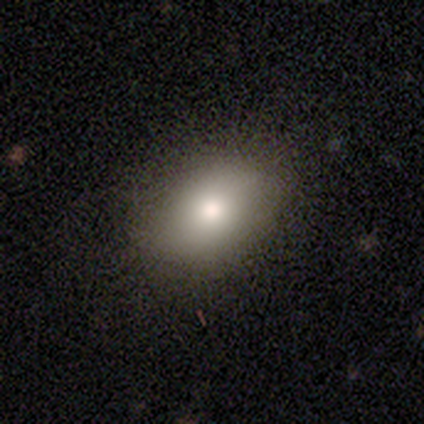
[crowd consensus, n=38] Morphology: type=smooth (74%); roundness=in between (75%); merging=none (76%).